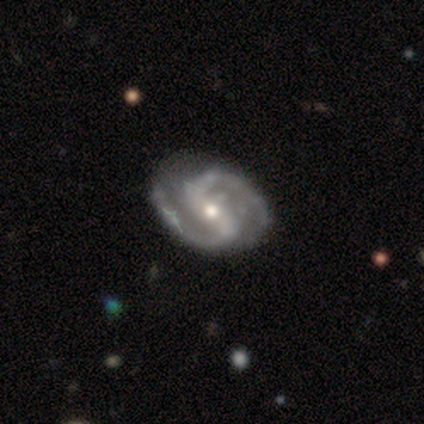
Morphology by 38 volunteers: This is clearly a featured or disk galaxy (89%). It is clearly not viewed edge-on (100%). Bar: likely strong (68%). Spiral arm pattern: clearly yes (100%). Spiral arm count: clearly 2 (97%). Spiral winding: likely medium (71%). Central bulge: possibly moderate (50%). Merging: possibly none (50%).